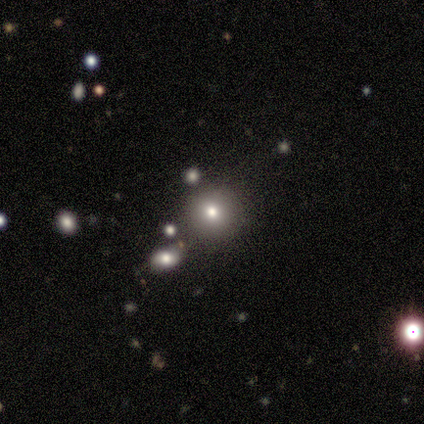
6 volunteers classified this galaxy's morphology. Overall: smooth (83%). How rounded: round (100%). Merging: none (80%).